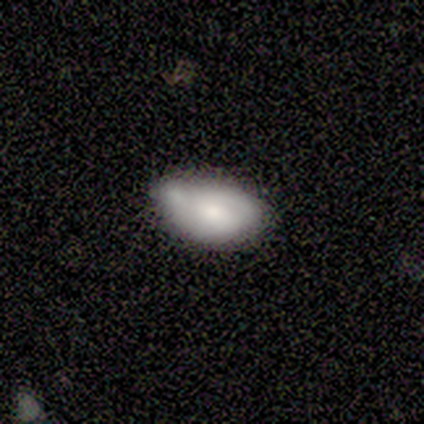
Smooth or featured: smooth — 75% (featured or disk — 25%)
How rounded: in between — 100%
Merging: none — 75% (minor disturbance — 25%)